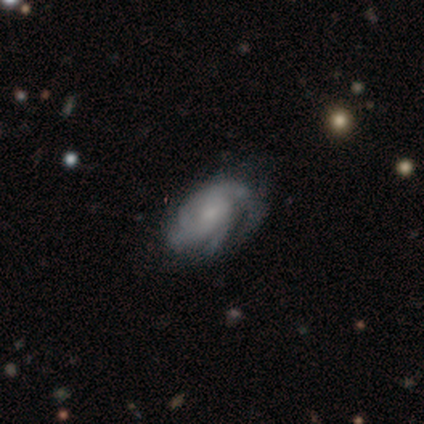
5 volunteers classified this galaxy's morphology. Overall: featured or disk (80%). Edge-on disk: no (100%). Bar: no (75%). Spiral arms: yes (100%). Spiral arm count: 3 (25%, tied with 4, more than 4 and can't tell). Spiral winding: tight (100%). Bulge size: small (75%). Merging: none (60%; minor disturbance 40%).